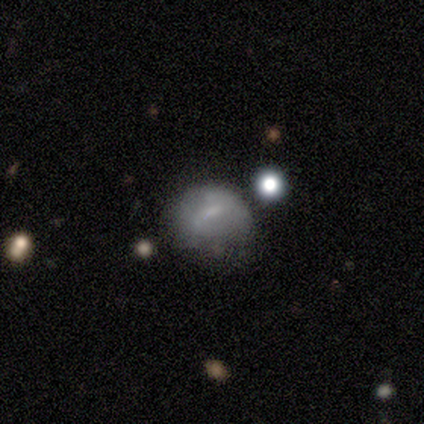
Smooth or featured?
  - smooth: 80% *
  - featured or disk: 20%
  - star or artifact: 0%
How rounded?
  - round: 75% *
  - in between: 25%
  - cigar-shaped: 0%
Merging?
  - none: 80% *
  - minor disturbance: 20%
  - major disturbance: 0%
  - merger: 0%